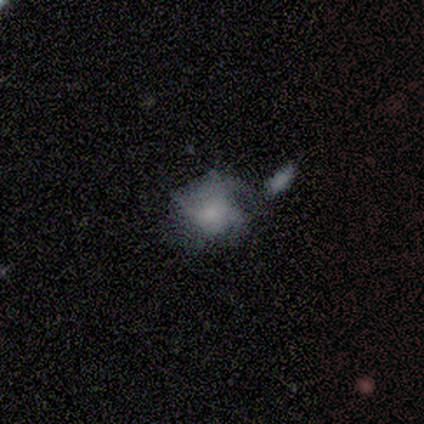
smooth_or_featured: smooth (p=0.67) [alt: star or artifact p=0.33]
how_rounded: round (p=0.50) [tied with: in between p=0.50]
merging: minor disturbance (p=0.50) [tied with: major disturbance p=0.50]